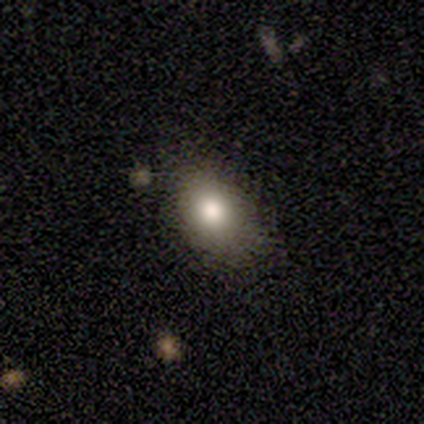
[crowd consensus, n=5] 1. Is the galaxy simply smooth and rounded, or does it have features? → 80% smooth, 20% star or artifact, 0% featured or disk.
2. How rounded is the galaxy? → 100% in between, 0% round, 0% cigar-shaped.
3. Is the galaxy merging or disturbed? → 100% none, 0% minor disturbance, 0% major disturbance, 0% merger.